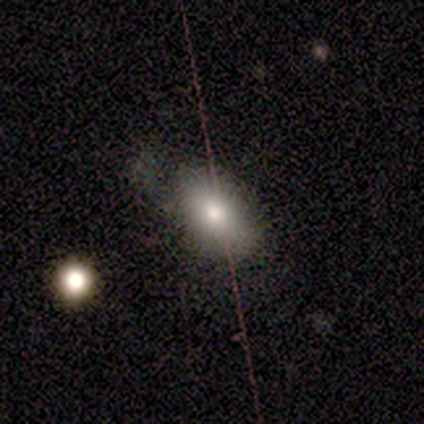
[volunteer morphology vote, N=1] Consensus on every question: smooth or featured — featured or disk (100%); edge-on disk — yes (100%); edge-on bulge — rounded (100%); merging — minor disturbance (100%).